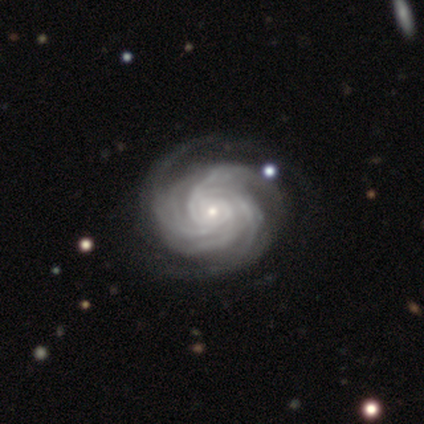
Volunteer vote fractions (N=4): Morphology: type=featured or disk (75%); edge-on=no (100%); bar=no (100%); spiral arms=yes (100%); winding=tight (100%); arm count=3 (33%, tied with more than 4 and can't tell); bulge=small (100%); merging=none (67%).